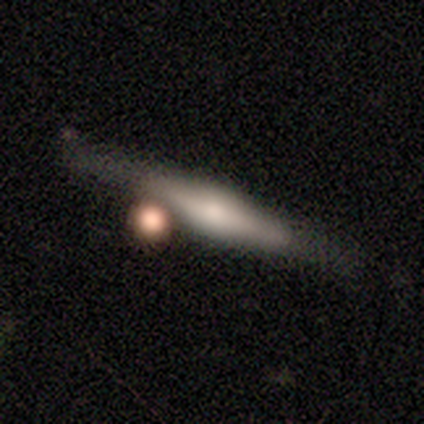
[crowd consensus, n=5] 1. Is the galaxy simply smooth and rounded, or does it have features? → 100% featured or disk, 0% smooth, 0% star or artifact.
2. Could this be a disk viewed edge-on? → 100% yes, 0% no.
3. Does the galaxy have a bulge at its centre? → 100% rounded, 0% boxy, 0% none.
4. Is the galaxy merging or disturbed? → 60% none, 20% minor disturbance, 20% merger, 0% major disturbance.